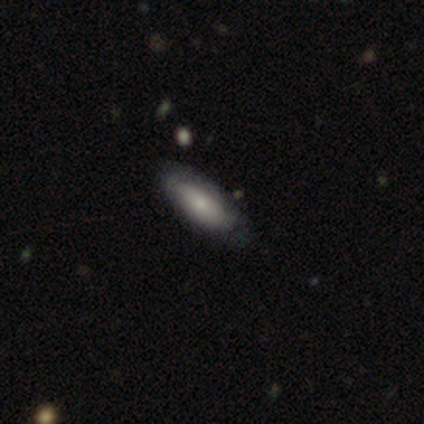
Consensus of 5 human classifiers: Smooth or featured: smooth — 60% (featured or disk — 20%)
How rounded: in between — 100%
Merging: none — 75% (major disturbance — 25%)